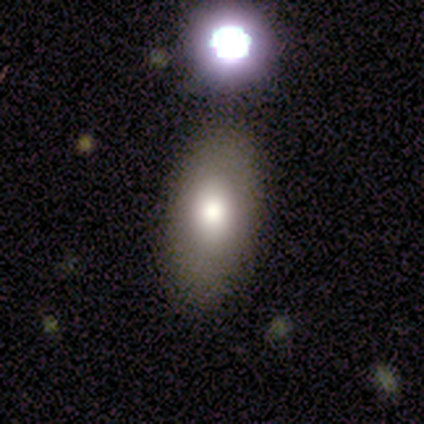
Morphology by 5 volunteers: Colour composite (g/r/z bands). It shows a smooth galaxy with no disk features (40%, tied with star or artifact) that is in between round and cigar-shaped (100%). Merging: none (67%).